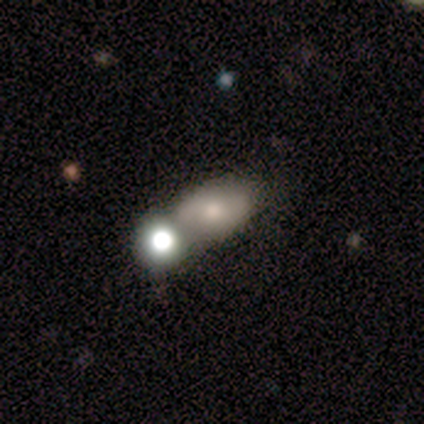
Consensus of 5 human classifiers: This is clearly a smooth galaxy (100%). How rounded: clearly in between (80%). Merging: likely merger (60%).